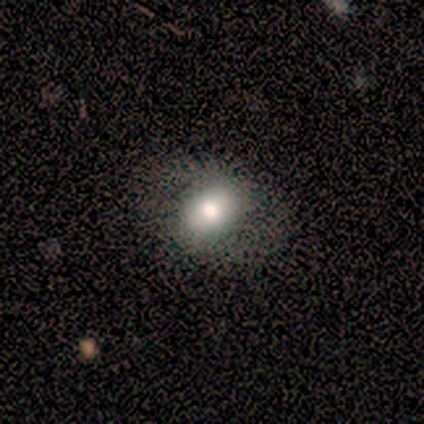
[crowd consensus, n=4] smooth-or-featured: smooth: 75% | featured or disk: 25% | star or artifact: 0%
  how-rounded: in between: 100% | round: 0% | cigar-shaped: 0%
  merging: none: 75% | minor disturbance: 25% | major disturbance: 0% | merger: 0%